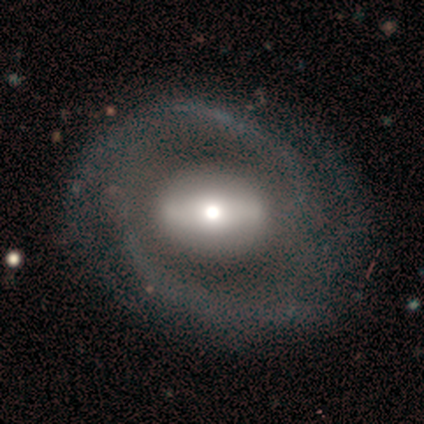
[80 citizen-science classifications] This is clearly a featured or disk galaxy (89%). It is clearly not viewed edge-on (96%). Bar: possibly strong (56%). Spiral arm pattern: clearly yes (88%). Spiral arm count: likely 2 (75%). Spiral winding: possibly medium (47%). Central bulge: possibly moderate (49%). Merging: marginally none (38%).